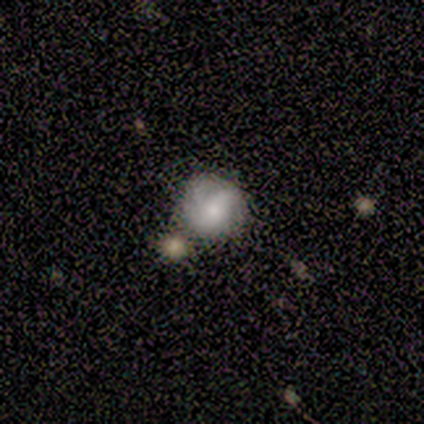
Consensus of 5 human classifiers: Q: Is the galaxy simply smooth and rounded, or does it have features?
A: featured or disk — 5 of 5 (100%).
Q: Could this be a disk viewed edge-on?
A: no — 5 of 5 (100%).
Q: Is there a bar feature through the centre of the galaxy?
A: weak — 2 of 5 (40%, tied with no).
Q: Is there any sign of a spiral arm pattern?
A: yes — 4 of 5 (80%).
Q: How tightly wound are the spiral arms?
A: tight — 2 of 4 (50%).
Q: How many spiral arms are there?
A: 2 — 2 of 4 (50%, tied with can't tell).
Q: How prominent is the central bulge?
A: moderate — 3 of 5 (60%).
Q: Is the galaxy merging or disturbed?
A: none — 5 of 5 (100%).